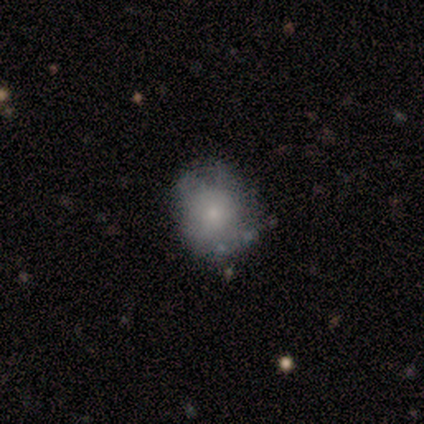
smooth_or_featured: featured or disk (p=0.60) [alt: smooth p=0.40]
disk_edge_on: no (p=1.00)
bar: no (p=1.00)
has_spiral_arms: no (p=0.67) [alt: yes p=0.33]
bulge_size: small (p=0.67) [alt: moderate p=0.33]
merging: none (p=0.60) [alt: minor disturbance p=0.20]